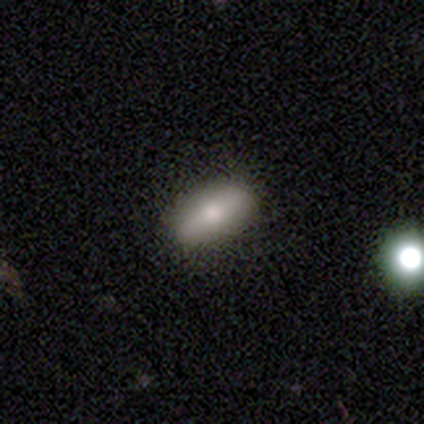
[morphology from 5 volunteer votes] Q: Smooth or featured?
A: smooth (100%)
Q: How rounded?
A: in between (80%); runner-up: cigar-shaped (20%)
Q: Merging?
A: none (100%)